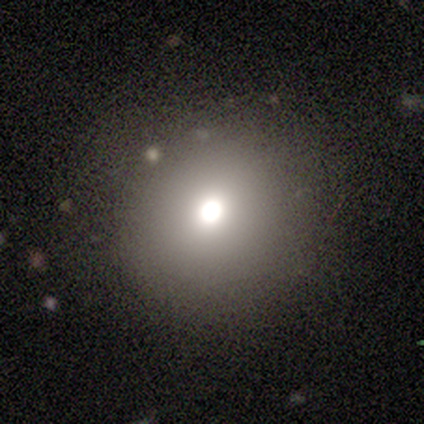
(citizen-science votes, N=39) A smooth galaxy with no disk features (64%) that is round (88%). Merging: none (77%).